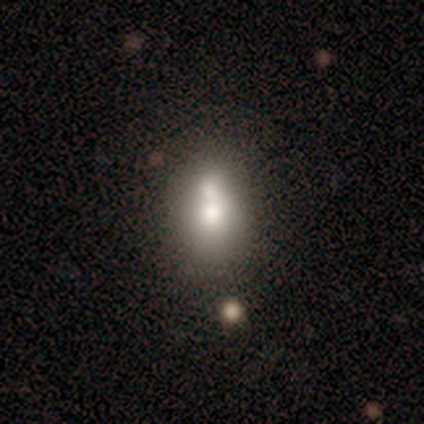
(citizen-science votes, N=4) Overall: smooth (75%). How rounded: in between (100%). Merging: none (67%; merger 33%).